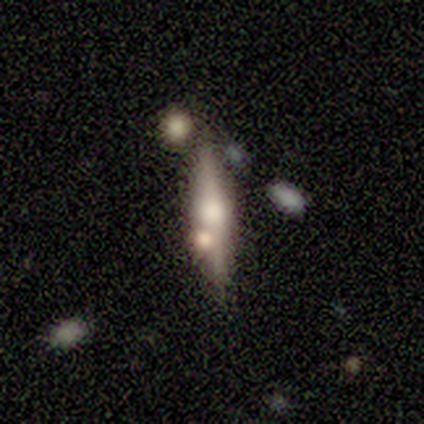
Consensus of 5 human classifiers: Volunteers were most divided on "smooth or featured": smooth: 80%, featured or disk: 20%, star or artifact: 0%. More confident: how rounded — cigar-shaped (100%); merging — none (100%).